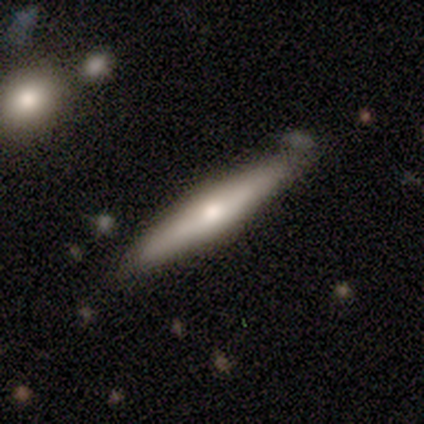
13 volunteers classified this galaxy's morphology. Q: Smooth or featured?
A: smooth (62%); runner-up: featured or disk (31%)
Q: How rounded?
A: cigar-shaped (100%)
Q: Merging?
A: none (100%)